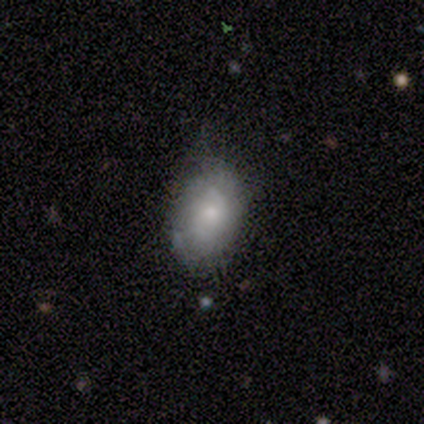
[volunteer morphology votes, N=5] smooth_or_featured: smooth (p=0.60) [alt: featured or disk p=0.20]
how_rounded: in between (p=1.00)
merging: none (p=0.75) [alt: minor disturbance p=0.25]